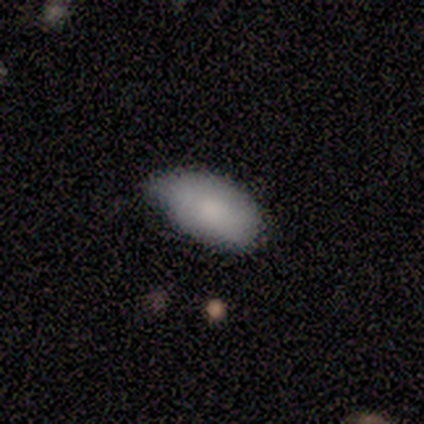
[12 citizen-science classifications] Smooth or featured? 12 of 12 (100%) said smooth. How rounded? 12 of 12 (100%) said in between. Merging? 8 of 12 (67%) said none.